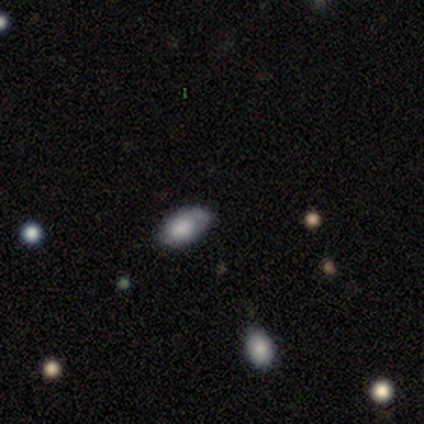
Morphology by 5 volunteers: This appears to be a smooth galaxy with no disk features (60%) that is in between round and cigar-shaped (100%). Merging: minor disturbance (80%).